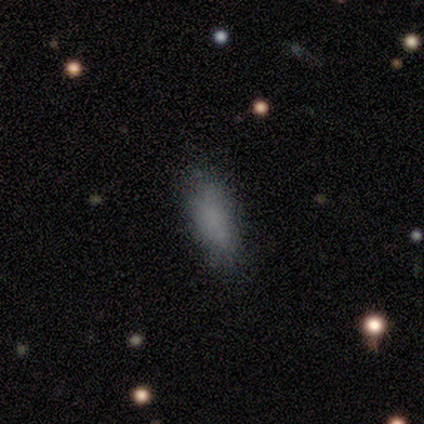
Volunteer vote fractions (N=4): smooth_or_featured: smooth (p=0.75) [alt: featured or disk p=0.25]
how_rounded: in between (p=0.67) [alt: cigar-shaped p=0.33]
merging: none (p=0.50) [tied with: minor disturbance p=0.50]